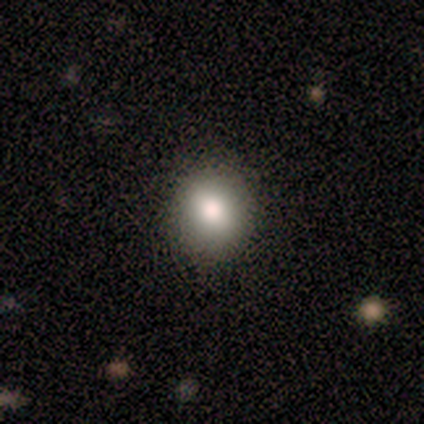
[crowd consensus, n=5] smooth-or-featured: smooth: 80% | star or artifact: 20% | featured or disk: 0%
  how-rounded: round: 75% | in between: 25% | cigar-shaped: 0%
  merging: none: 100% | minor disturbance: 0% | major disturbance: 0% | merger: 0%